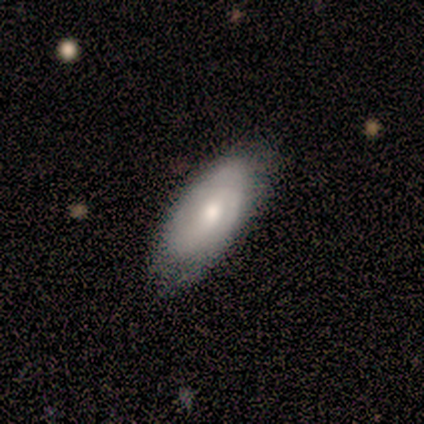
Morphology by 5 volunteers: featured or disk 60%, smooth 40%, star or artifact 0%. Down the decision tree: edge-on disk — no (67%); bar — weak (50%, tied with no); spiral arms — yes (100%); spiral arm count — 2 (50%, tied with can't tell); spiral winding — medium (100%); bulge size — moderate (50%, tied with small); merging — none (80%).